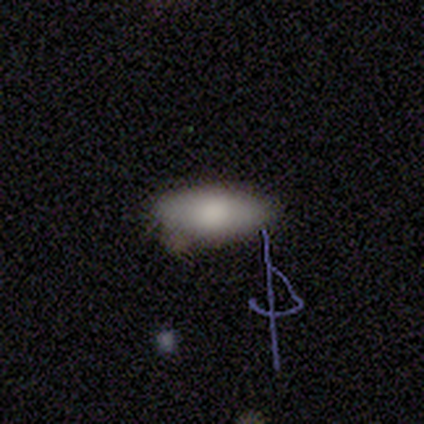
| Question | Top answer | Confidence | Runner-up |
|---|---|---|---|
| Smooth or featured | smooth | 100% | — |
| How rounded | in between | 80% | cigar-shaped (20%) |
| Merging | none | 80% | minor disturbance (20%) |